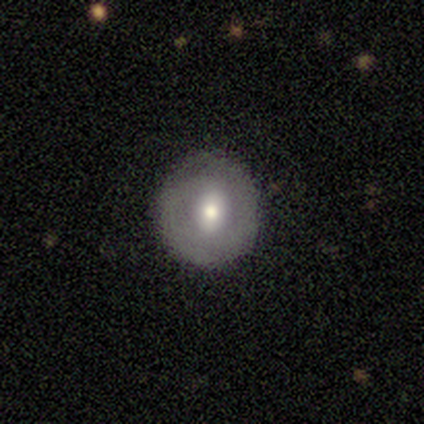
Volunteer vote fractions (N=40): Overall: smooth (50%; featured or disk 45%). How rounded: round (100%). Merging: none (84%).